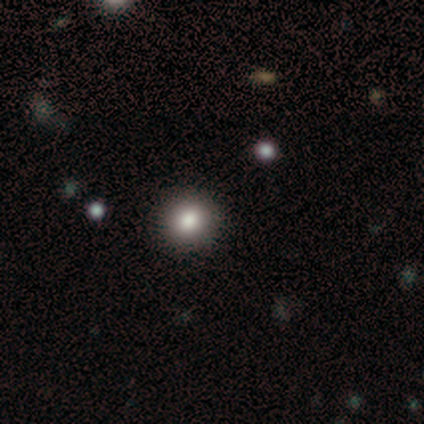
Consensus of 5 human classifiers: This is clearly a smooth galaxy (80%). How rounded: likely round (75%). Merging: clearly none (80%).